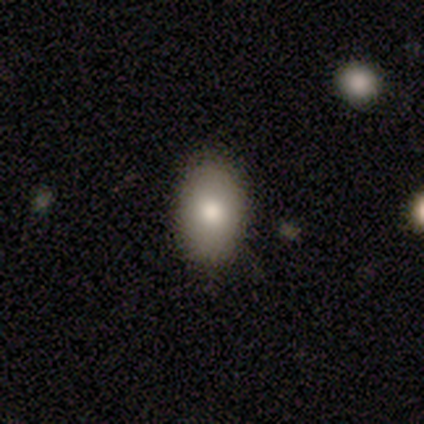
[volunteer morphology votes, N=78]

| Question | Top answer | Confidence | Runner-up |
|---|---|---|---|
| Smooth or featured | smooth | 77% | featured or disk (13%) |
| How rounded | in between | 92% | round (7%) |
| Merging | none | 43% | minor disturbance (6%) |